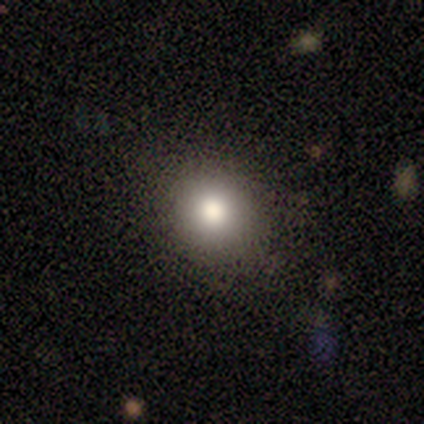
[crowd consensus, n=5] Smooth or featured? smooth (100%)
How rounded? round (80%)
Merging? none (100%)